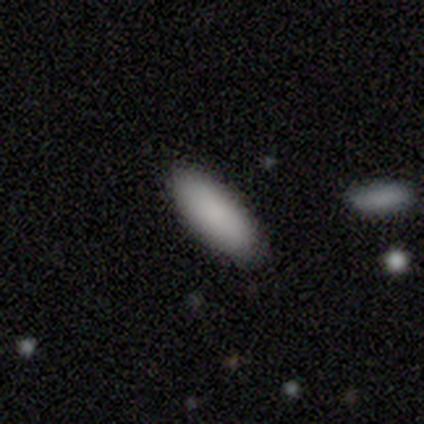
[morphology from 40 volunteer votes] Volunteers were most divided on "how rounded": in between: 74%, cigar-shaped: 26%, round: 0%. More confident: merging — none (92%); smooth or featured — smooth (88%).